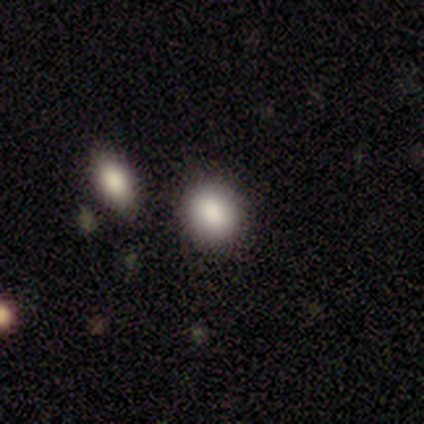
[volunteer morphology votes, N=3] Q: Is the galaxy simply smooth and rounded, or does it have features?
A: smooth — 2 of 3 (67%).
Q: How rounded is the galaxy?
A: round — 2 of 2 (100%).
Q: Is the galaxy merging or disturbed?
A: none — 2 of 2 (100%).